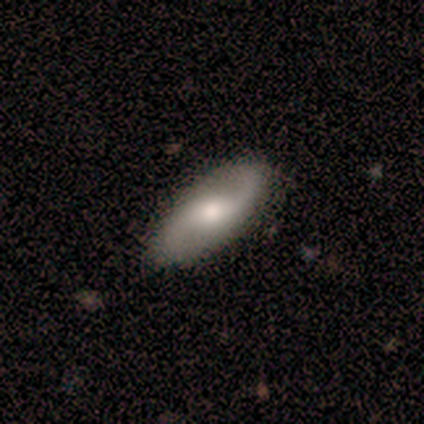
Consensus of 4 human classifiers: Volunteers were most divided on "bulge size": moderate: 50%, small: 25%, none: 25%, dominant: 0%, large: 0%. More confident: smooth or featured — featured or disk (100%); edge-on disk — no (100%); spiral arms — yes (100%); spiral arm count — 2 (100%); merging — none (100%); bar — weak (75%); spiral winding — loose (75%).